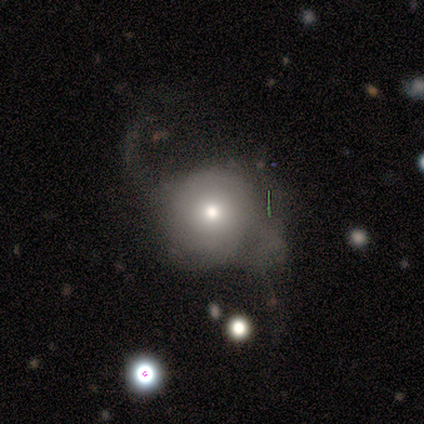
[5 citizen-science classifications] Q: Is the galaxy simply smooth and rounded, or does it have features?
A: smooth — 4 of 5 (80%).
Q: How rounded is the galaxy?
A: round — 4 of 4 (100%).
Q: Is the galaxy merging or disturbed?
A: major disturbance — 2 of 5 (40%).